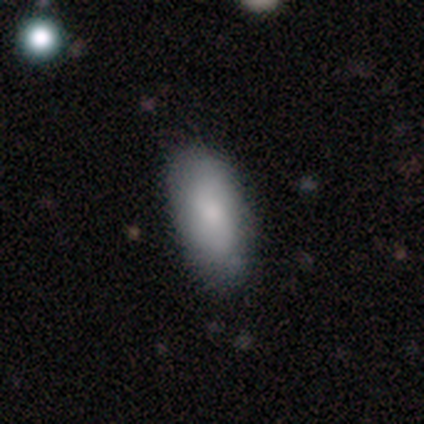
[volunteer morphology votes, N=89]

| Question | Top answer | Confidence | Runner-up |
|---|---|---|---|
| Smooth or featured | smooth | 82% | star or artifact (10%) |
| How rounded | in between | 89% | cigar-shaped (11%) |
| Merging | none | 76% | minor disturbance (20%) |